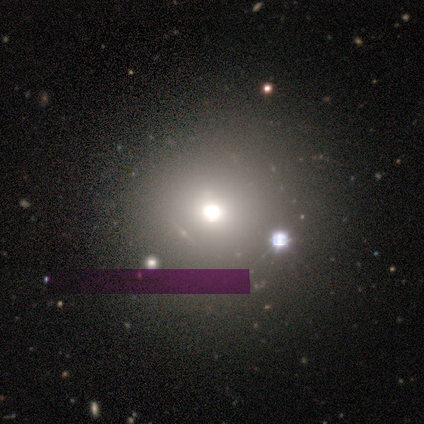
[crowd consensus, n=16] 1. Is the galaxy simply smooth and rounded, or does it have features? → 62% smooth, 38% star or artifact, 0% featured or disk.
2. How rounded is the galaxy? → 100% round, 0% in between, 0% cigar-shaped.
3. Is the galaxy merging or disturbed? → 90% none, 10% minor disturbance, 0% major disturbance, 0% merger.